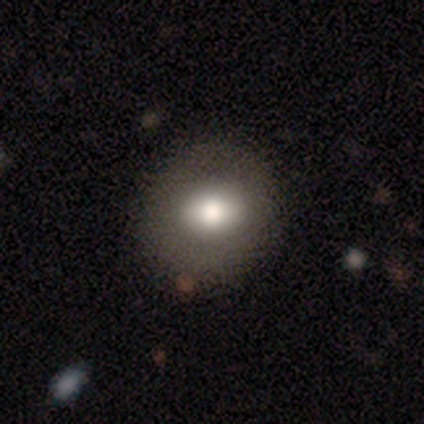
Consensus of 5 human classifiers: A smooth galaxy with no disk features (80%) that is round (50%, tied with in between). Merging: none (100%).